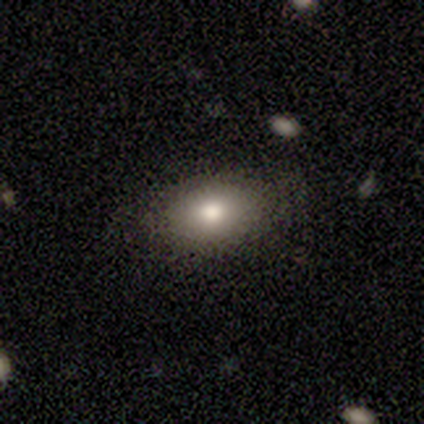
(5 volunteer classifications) Q: Smooth or featured?
A: smooth (60%); runner-up: featured or disk (20%)
Q: How rounded?
A: in between (100%)
Q: Merging?
A: none (100%)